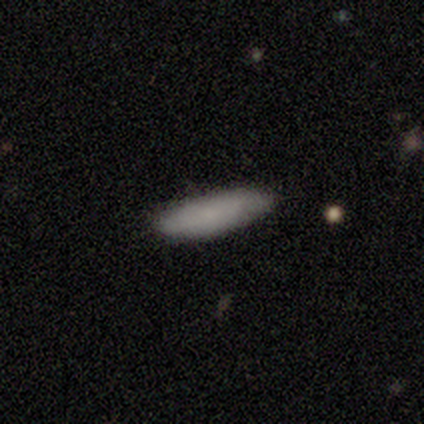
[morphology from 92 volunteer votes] Q: Smooth or featured?
A: smooth (80%); runner-up: featured or disk (14%)
Q: How rounded?
A: cigar-shaped (73%); runner-up: in between (26%)
Q: Merging?
A: none (84%); runner-up: minor disturbance (14%)